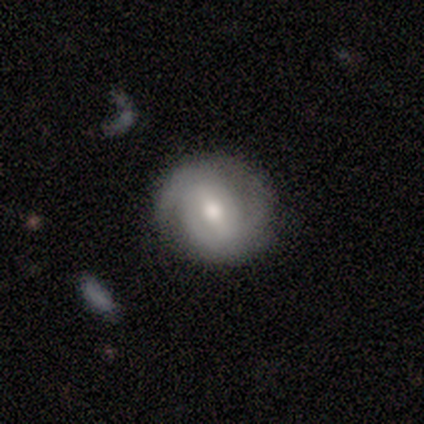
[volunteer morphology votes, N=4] Smooth or featured?
  - smooth: 50% *
  - featured or disk: 25%
  - star or artifact: 25%
How rounded?
  - round: 100% *
  - in between: 0%
  - cigar-shaped: 0%
Merging?
  - none: 67% *
  - minor disturbance: 33%
  - major disturbance: 0%
  - merger: 0%